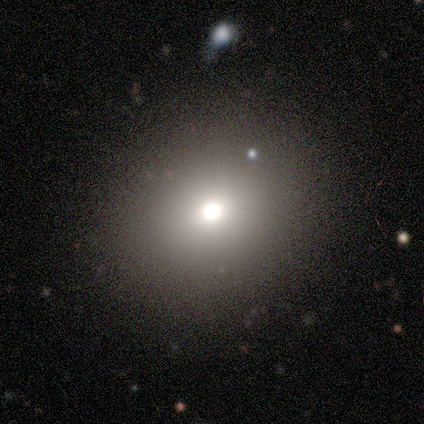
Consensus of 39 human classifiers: Smooth or featured: smooth — 82% (star or artifact — 10%)
How rounded: round — 78% (in between — 22%)
Merging: none — 86% (minor disturbance — 11%)